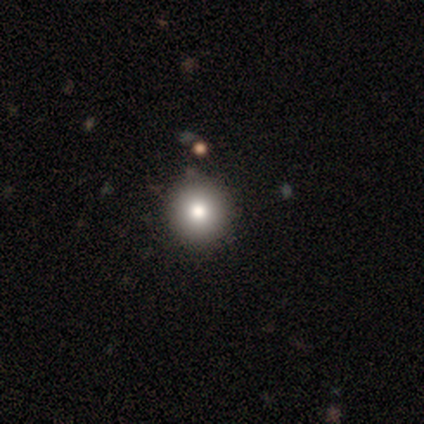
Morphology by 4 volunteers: Q: Smooth or featured?
A: smooth (75%); runner-up: featured or disk (25%)
Q: How rounded?
A: round (100%)
Q: Merging?
A: none (75%); runner-up: merger (25%)